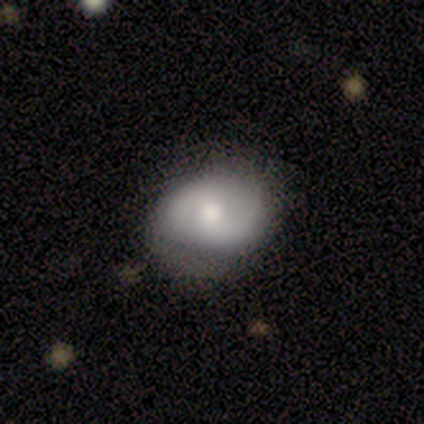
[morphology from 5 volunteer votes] Smooth or featured: featured or disk — 80% (smooth — 20%)
Edge-on disk: no — 100%
Bar: weak — 50% (tied with no — 50%)
Spiral arms: yes — 75% (no — 25%)
Spiral winding: tight — 33% (tied with medium — 33%; loose — 33%)
Spiral arm count: 2 — 100%
Bulge size: moderate — 75% (large — 25%)
Merging: none — 40% (tied with minor disturbance — 40%)